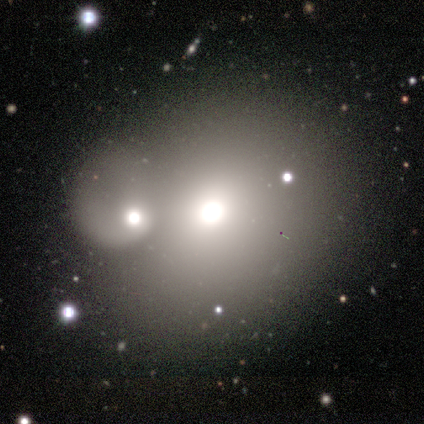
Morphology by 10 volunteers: smooth-or-featured: smooth: 50% (tied) | featured or disk: 50% (tied) | star or artifact: 0%
  how-rounded: round: 80% | in between: 20% | cigar-shaped: 0%
  merging: merger: 50% | none: 20% | major disturbance: 20% | minor disturbance: 10%